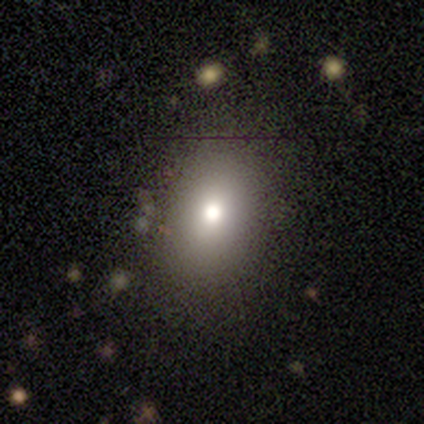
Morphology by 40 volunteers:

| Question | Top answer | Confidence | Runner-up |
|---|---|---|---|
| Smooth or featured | smooth | 68% | featured or disk (22%) |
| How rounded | in between | 67% | round (33%) |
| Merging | none | 81% | minor disturbance (11%) |